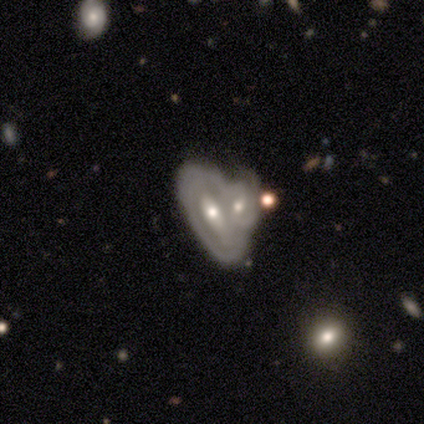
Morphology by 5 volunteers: A featured or disk galaxy (100%) with a strong bar (60%), no spiral arms (60%) and a moderate central bulge (60%). Merging: merger (60%).